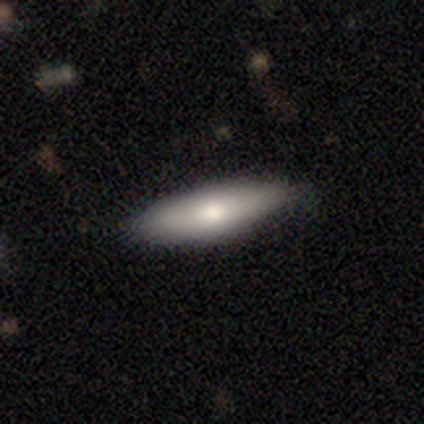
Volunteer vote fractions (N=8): Q: Smooth or featured?
A: smooth (88%); runner-up: star or artifact (12%)
Q: How rounded?
A: in between (71%); runner-up: cigar-shaped (29%)
Q: Merging?
A: none (86%); runner-up: major disturbance (14%)